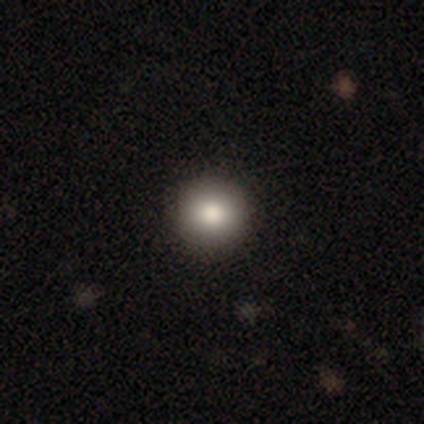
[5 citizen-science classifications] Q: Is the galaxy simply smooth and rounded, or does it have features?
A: smooth — 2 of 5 (40%, tied with featured or disk).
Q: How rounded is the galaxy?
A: round — 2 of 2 (100%).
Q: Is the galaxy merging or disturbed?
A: none — 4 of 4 (100%).